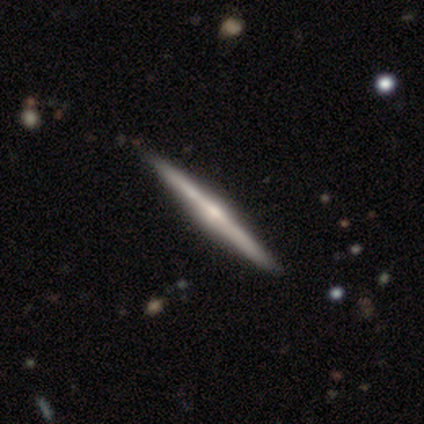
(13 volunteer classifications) Volunteers were most divided on "edge-on bulge": rounded: 69%, none: 31%, boxy: 0%. More confident: smooth or featured — featured or disk (100%); edge-on disk — yes (100%); merging — none (100%).